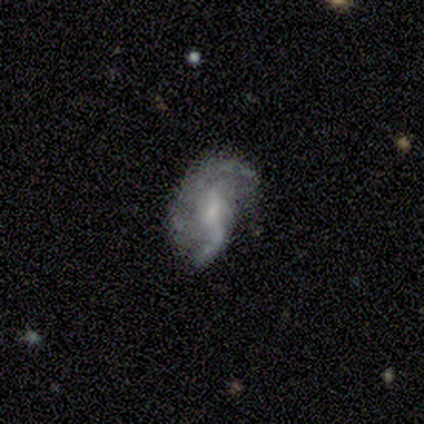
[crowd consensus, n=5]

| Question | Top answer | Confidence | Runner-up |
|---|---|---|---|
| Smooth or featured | featured or disk | 60% | smooth (40%) |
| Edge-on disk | no | 100% | — |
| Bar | weak | 67% | no (33%) |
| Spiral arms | yes | 100% | — |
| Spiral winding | loose | 67% | medium (33%) |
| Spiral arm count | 1 | 33% | tied: 2 (33%), can't tell (33%) |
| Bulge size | small | 67% | none (33%) |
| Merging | minor disturbance | 60% | none (20%) |